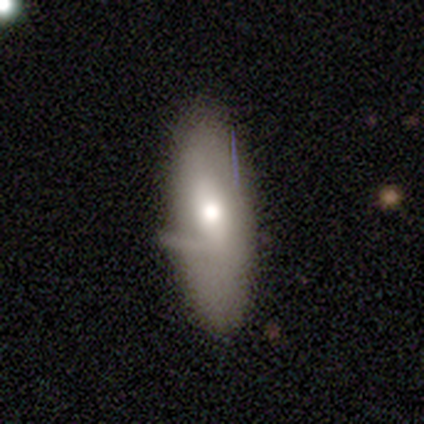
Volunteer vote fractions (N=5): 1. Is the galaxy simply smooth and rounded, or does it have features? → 60% featured or disk, 40% smooth, 0% star or artifact.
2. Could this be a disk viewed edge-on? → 100% no, 0% yes.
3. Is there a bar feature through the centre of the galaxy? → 67% weak, 33% no, 0% strong.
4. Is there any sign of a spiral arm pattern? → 100% no, 0% yes.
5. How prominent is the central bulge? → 67% moderate, 33% small, 0% dominant, 0% large, 0% none.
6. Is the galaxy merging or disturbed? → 60% none, 40% minor disturbance, 0% major disturbance, 0% merger.